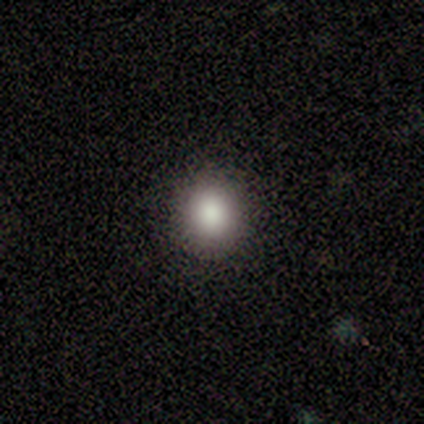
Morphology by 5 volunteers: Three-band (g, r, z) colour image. It shows a smooth galaxy with no disk features (100%) that is round (100%). Merging: none (80%).